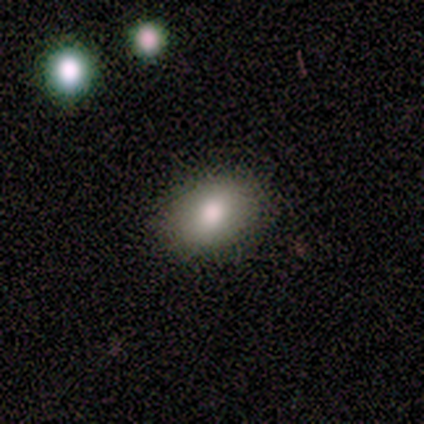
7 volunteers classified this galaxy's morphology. smooth 57%, star or artifact 29%, featured or disk 14%. Down the decision tree: how rounded — in between (75%); merging — none (60%).